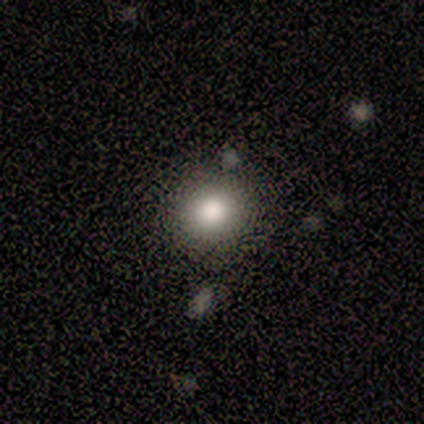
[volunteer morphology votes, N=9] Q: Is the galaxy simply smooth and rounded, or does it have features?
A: smooth — 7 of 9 (78%).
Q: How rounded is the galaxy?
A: round — 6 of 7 (86%).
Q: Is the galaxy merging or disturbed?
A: none — 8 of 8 (100%).